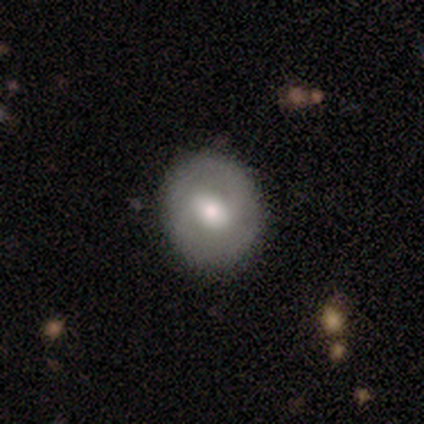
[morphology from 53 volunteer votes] This is likely a featured or disk galaxy (68%). It is clearly not viewed edge-on (94%). Bar: possibly weak (56%). Spiral arm pattern: clearly yes (85%). Spiral arm count: clearly 2 (83%). Spiral winding: marginally medium (45%). Central bulge: likely moderate (76%). Merging: clearly none (91%).